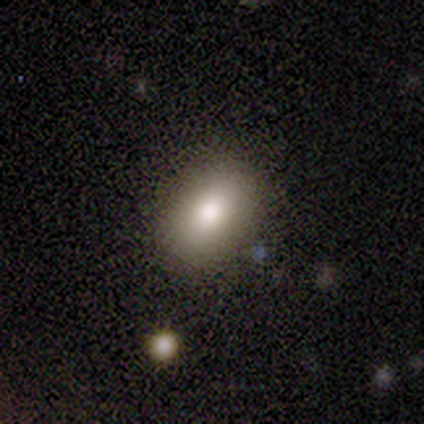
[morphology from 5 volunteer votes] Q: Smooth or featured?
A: smooth (100%)
Q: How rounded?
A: in between (60%); runner-up: round (40%)
Q: Merging?
A: none (100%)